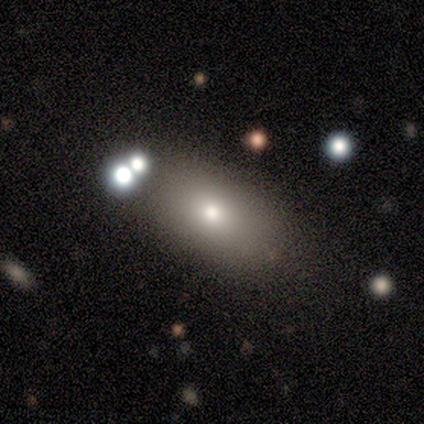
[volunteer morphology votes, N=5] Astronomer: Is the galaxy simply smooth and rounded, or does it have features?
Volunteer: smooth — 40%, tied with star or artifact at 40%.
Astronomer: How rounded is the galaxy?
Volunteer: in between — 100%.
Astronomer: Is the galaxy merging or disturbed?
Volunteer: none — 67%.